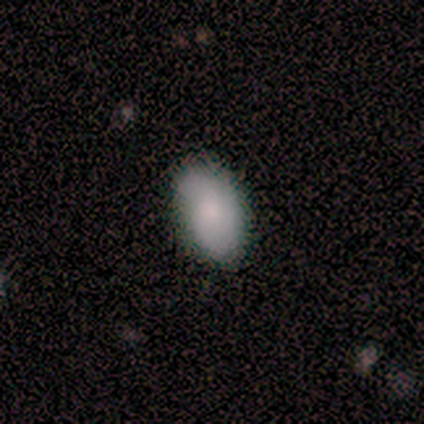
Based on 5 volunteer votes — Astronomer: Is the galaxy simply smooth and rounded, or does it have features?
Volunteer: smooth — 80%.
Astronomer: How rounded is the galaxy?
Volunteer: in between — 75%.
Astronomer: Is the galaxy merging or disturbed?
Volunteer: none — 80%.